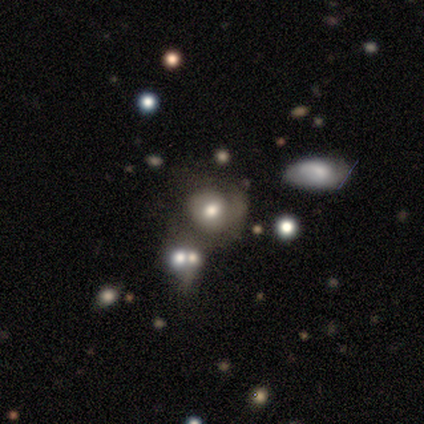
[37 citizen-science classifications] Smooth or featured? 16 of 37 (43%) said smooth. How rounded? 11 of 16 (69%) said round. Merging? 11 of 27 (41%) said none.